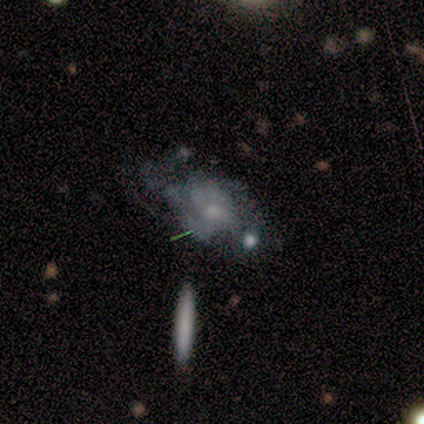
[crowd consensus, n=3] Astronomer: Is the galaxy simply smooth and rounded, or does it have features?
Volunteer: featured or disk — 100%.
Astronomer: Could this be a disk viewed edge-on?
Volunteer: no — 100%.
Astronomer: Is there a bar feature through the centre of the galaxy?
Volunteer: no — 67%.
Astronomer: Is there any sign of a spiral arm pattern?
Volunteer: yes — 67%.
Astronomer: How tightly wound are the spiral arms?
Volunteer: medium — 100%.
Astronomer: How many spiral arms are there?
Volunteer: can't tell — 100%.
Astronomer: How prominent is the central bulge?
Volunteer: small — 67%.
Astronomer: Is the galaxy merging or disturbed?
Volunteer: none — 33%, tied with minor disturbance and major disturbance at 33%.